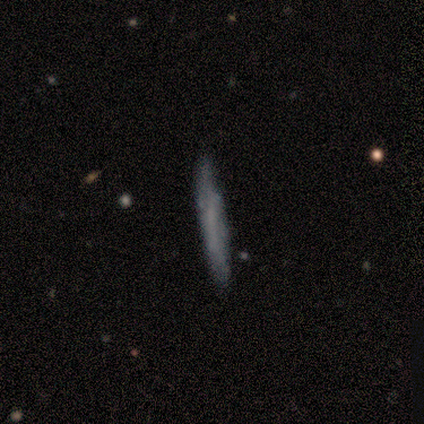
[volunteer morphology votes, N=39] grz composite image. It shows a smooth galaxy with no disk features (51%) that is cigar-shaped (95%). Merging: none (83%).